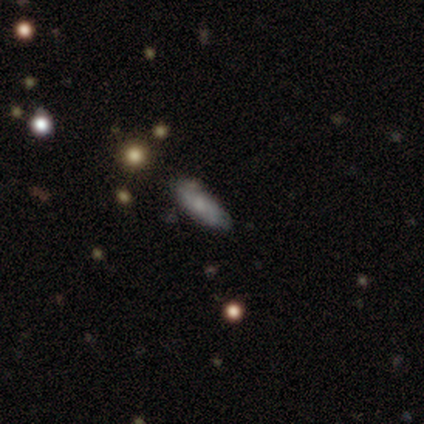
This appears to be a featured or disk galaxy (60%) with no bar (67%), no spiral arms (67%) and a small central bulge (100%). Merging: none (80%).